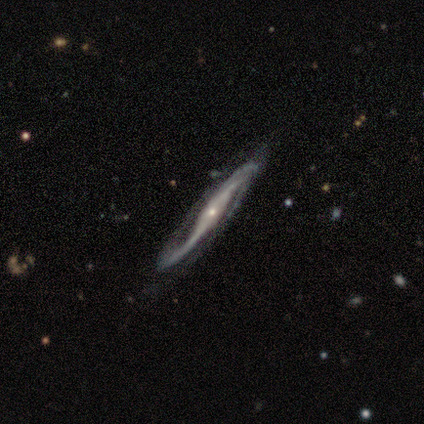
Morphology: type=featured or disk (100%); edge-on=no (60%); bar=no (67%); spiral arms=yes (100%); winding=loose (67%); arm count=2 (100%); bulge=small (100%); merging=none (80%).